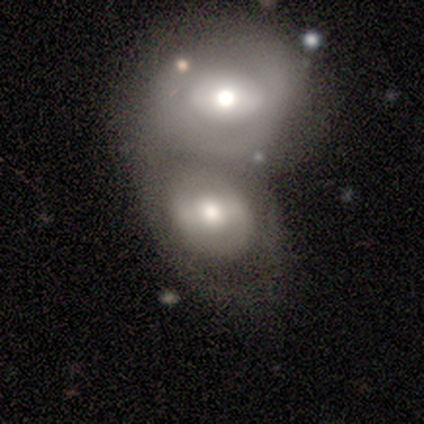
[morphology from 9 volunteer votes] featured or disk 89%, smooth 11%, star or artifact 0%. Down the decision tree: edge-on disk — no (100%); bar — no (50%); spiral arms — no (88%); bulge size — moderate (88%); merging — merger (89%).